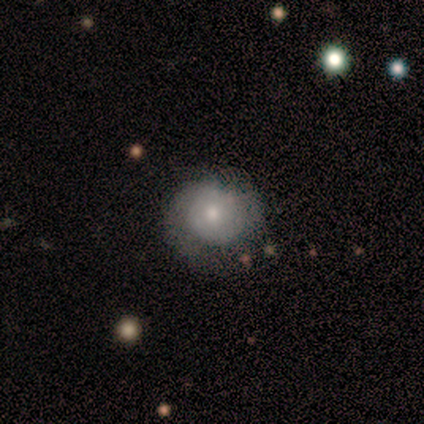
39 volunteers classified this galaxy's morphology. This appears to be a smooth galaxy with no disk features (62%) that is round (88%). Merging: none (57%).